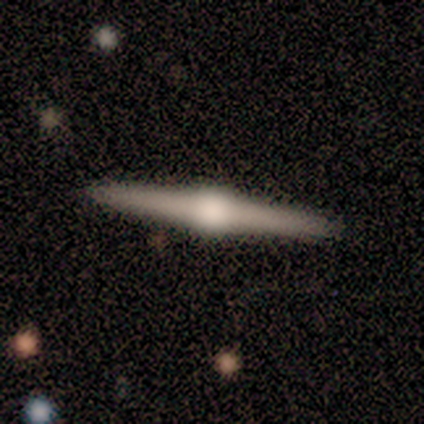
Smooth or featured? smooth (50%, tied with featured or disk)
How rounded? cigar-shaped (100%)
Merging? none (100%)